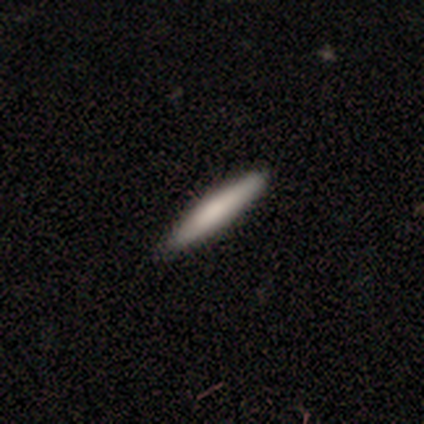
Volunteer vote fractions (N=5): A smooth galaxy with no disk features (60%) that is cigar-shaped (100%).

Vote fractions:
- Smooth or featured? smooth: 60% / featured or disk: 20% / star or artifact: 20%
- How rounded? cigar-shaped: 100% / round: 0% / in between: 0%
- Merging? none: 100% / minor disturbance: 0% / major disturbance: 0% / merger: 0%